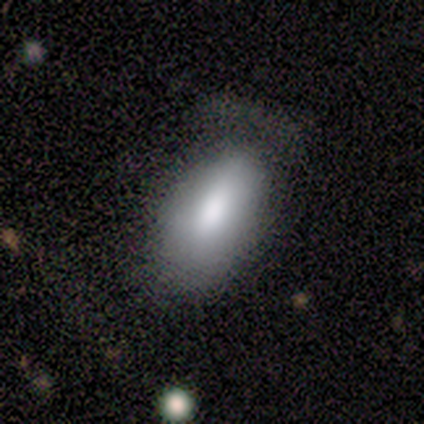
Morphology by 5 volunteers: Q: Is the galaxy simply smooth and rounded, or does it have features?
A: smooth — 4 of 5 (80%).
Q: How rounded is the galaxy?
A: in between — 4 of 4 (100%).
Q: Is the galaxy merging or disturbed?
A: none — 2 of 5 (40%, tied with major disturbance).